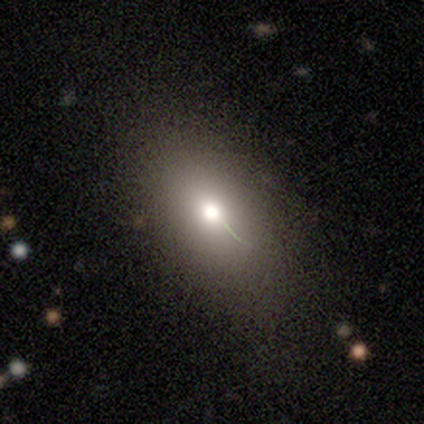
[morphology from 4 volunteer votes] A featured or disk galaxy (50%) with no bar (100%), no spiral arms (100%) and a moderate central bulge (100%).

Vote fractions:
- Smooth or featured? featured or disk: 50% / smooth: 25% / star or artifact: 25%
- Edge-on disk? no: 100% / yes: 0%
- Bar? no: 100% / strong: 0% / weak: 0%
- Spiral arms? no: 100% / yes: 0%
- Bulge size? moderate: 100% / dominant: 0% / large: 0% / small: 0% / none: 0%
- Merging? none: 67% / major disturbance: 33% / minor disturbance: 0% / merger: 0%